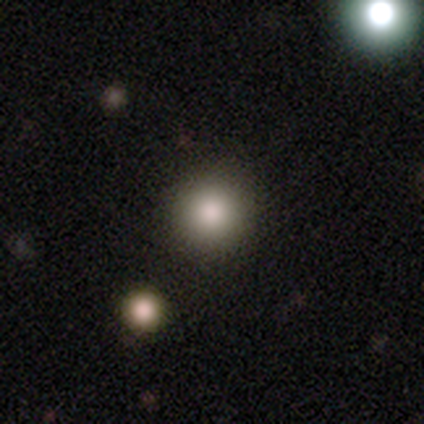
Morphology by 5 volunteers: Smooth or featured? smooth (40%, tied with star or artifact)
How rounded? round (100%)
Merging? none (67%)